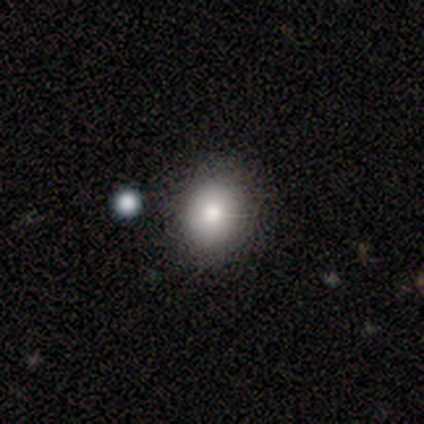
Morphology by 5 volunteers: Overall: smooth (60%; star or artifact 40%). How rounded: round (67%; in between 33%). Merging: none (100%).